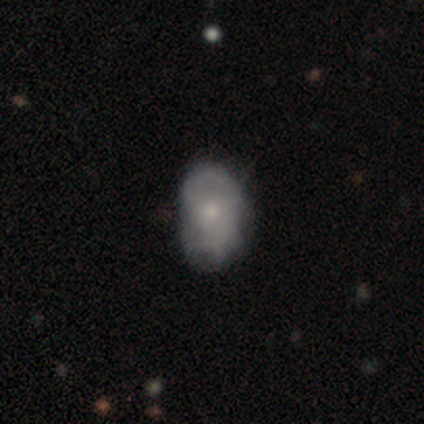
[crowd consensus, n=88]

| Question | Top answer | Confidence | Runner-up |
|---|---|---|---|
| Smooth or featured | smooth | 59% | featured or disk (34%) |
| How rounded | in between | 92% | round (6%) |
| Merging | none | 60% | minor disturbance (27%) |